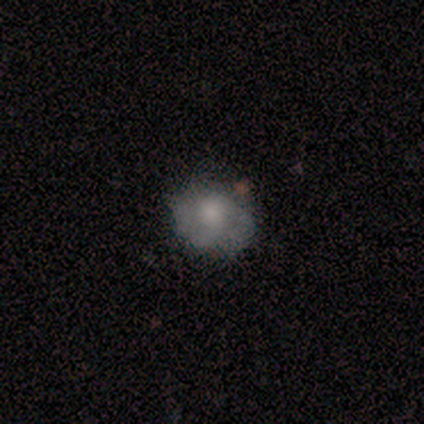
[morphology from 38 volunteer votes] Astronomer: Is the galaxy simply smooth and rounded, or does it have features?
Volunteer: featured or disk — 53% (runner-up: smooth, 42%).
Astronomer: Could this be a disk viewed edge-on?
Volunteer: no — 95%.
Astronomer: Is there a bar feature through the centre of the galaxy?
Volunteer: no — 79%.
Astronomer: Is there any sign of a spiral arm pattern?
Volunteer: yes — 53% (runner-up: no, 47%).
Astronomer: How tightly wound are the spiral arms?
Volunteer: tight — 50% (runner-up: medium, 40%).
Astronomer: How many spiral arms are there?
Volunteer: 2 — 50%.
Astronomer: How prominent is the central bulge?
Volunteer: moderate — 37%, tied with small at 37%.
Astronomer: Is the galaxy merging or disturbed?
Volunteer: none — 67%.